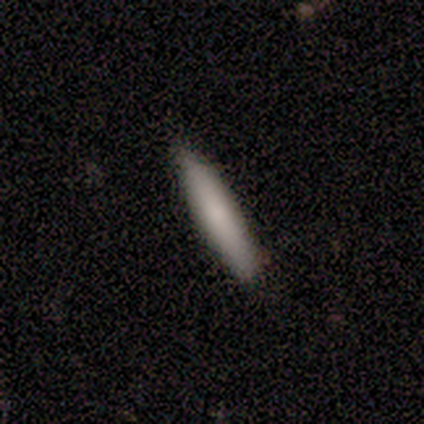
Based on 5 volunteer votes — Smooth or featured?
  - smooth: 60% *
  - featured or disk: 40%
  - star or artifact: 0%
How rounded?
  - cigar-shaped: 100% *
  - round: 0%
  - in between: 0%
Merging?
  - none: 100% *
  - minor disturbance: 0%
  - major disturbance: 0%
  - merger: 0%